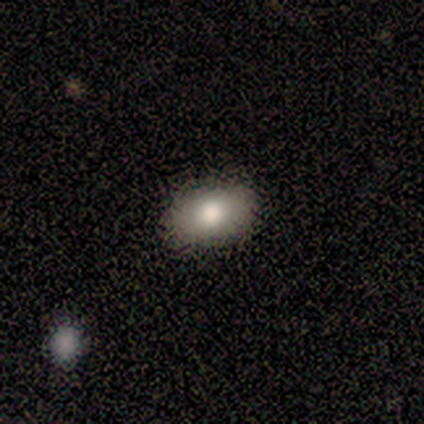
This is clearly a smooth galaxy (100%). How rounded: clearly in between (80%). Merging: clearly none (100%).